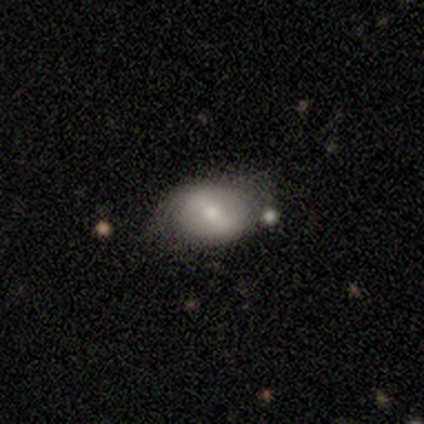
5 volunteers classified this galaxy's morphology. Overall: featured or disk (80%). Edge-on disk: no (100%). Bar: weak (50%; strong 25%). Spiral arms: no (75%). Bulge size: moderate (50%, tied with small). Merging: none (60%; minor disturbance 40%).